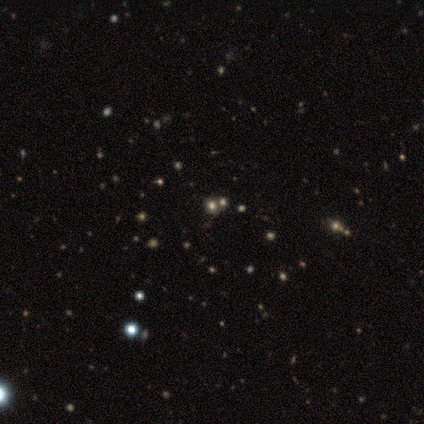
Volunteers were most divided on "smooth or featured" (2-way tie): featured or disk: 50%, star or artifact: 50%, smooth: 0%; "bar" (2-way tie): strong: 50%, weak: 50%, no: 0%; "spiral arms" (2-way tie): yes: 50%, no: 50%; "bulge size" (2-way tie): moderate: 50%, small: 50%, dominant: 0%, large: 0%, none: 0%; "merging" (2-way tie): none: 50%, minor disturbance: 50%, major disturbance: 0%, merger: 0%. More confident: edge-on disk — no (100%); spiral winding — tight (100%); spiral arm count — 2 (100%).